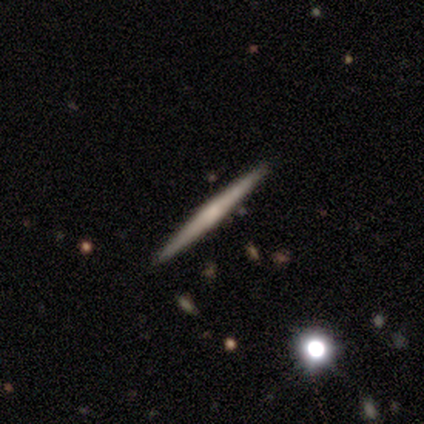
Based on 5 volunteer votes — Smooth or featured: featured or disk — 100%
Edge-on disk: yes — 100%
Edge-on bulge: none — 40% (tied with rounded — 40%)
Merging: none — 100%